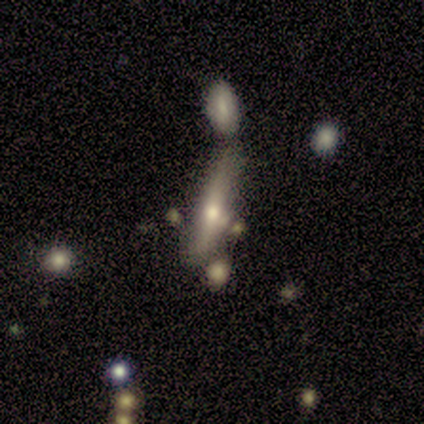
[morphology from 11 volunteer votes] smooth 73%, featured or disk 18%, star or artifact 9%. Down the decision tree: how rounded — cigar-shaped (75%); merging — none (50%).